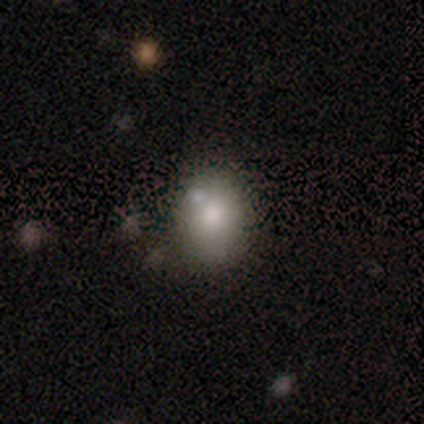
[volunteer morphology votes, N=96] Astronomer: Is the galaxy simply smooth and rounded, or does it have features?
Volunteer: smooth — 72%.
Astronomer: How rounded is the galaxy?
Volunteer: round — 55% (runner-up: in between, 43%).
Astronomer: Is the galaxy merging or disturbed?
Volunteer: none — 64%.